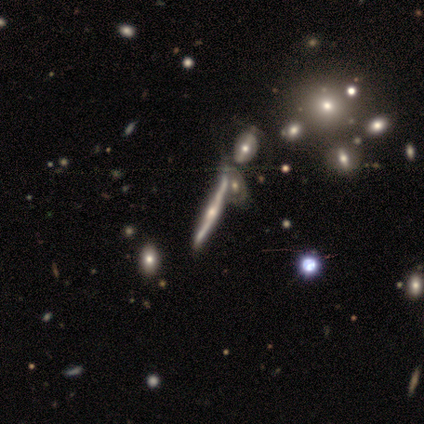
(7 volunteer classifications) Overall: featured or disk (71%). Edge-on disk: yes (80%). Edge-on bulge: rounded (100%). Merging: merger (50%; none 33%).